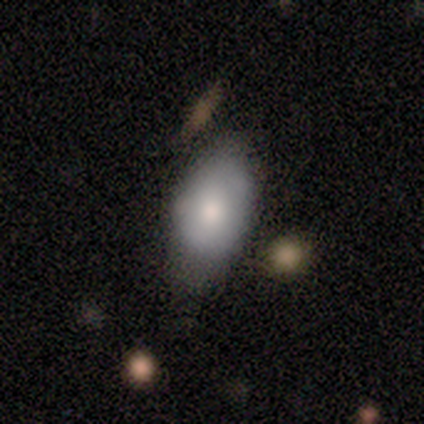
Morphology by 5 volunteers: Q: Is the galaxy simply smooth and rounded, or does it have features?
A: smooth — 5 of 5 (100%).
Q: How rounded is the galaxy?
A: in between — 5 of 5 (100%).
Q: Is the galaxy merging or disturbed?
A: none — 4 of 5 (80%).